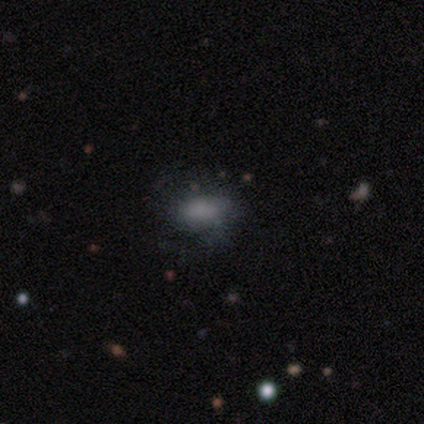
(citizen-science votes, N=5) Volunteers were most divided on "smooth or featured": smooth: 60%, featured or disk: 40%, star or artifact: 0%. More confident: how rounded — in between (100%); merging — none (60%).